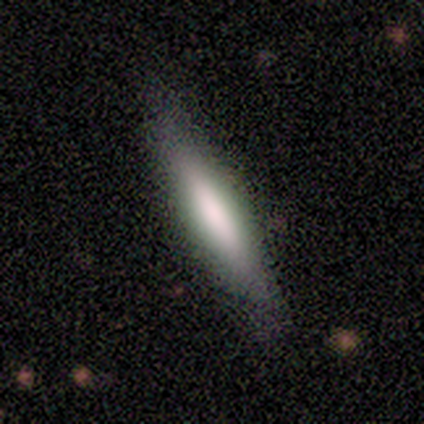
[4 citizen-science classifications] Smooth or featured?
  - smooth: 50% * (tied)
  - featured or disk: 50% * (tied)
  - star or artifact: 0%
How rounded?
  - cigar-shaped: 100% *
  - round: 0%
  - in between: 0%
Merging?
  - none: 50% * (tied)
  - merger: 50% * (tied)
  - minor disturbance: 0%
  - major disturbance: 0%